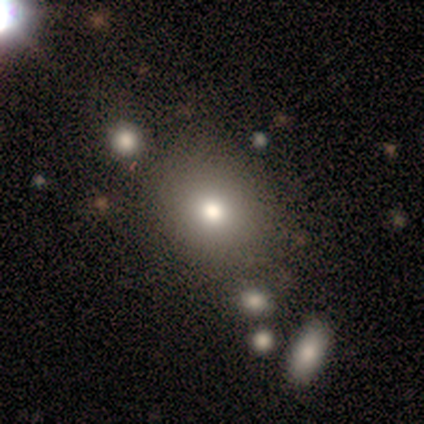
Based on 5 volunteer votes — A smooth galaxy with no disk features (60%) that is round (67%). Merging: none (80%).